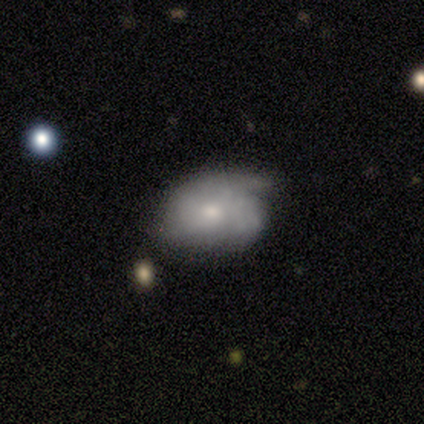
Smooth or featured: smooth — 50% (tied with featured or disk — 50%)
How rounded: in between — 100%
Merging: none — 50% (tied with major disturbance — 50%)